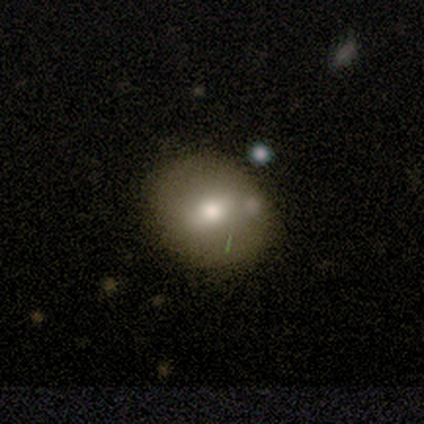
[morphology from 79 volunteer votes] Smooth or featured?
  - smooth: 73% *
  - featured or disk: 23%
  - star or artifact: 4%
How rounded?
  - round: 69% *
  - in between: 31%
  - cigar-shaped: 0%
Merging?
  - none: 41% *
  - minor disturbance: 9%
  - merger: 4%
  - major disturbance: 0%